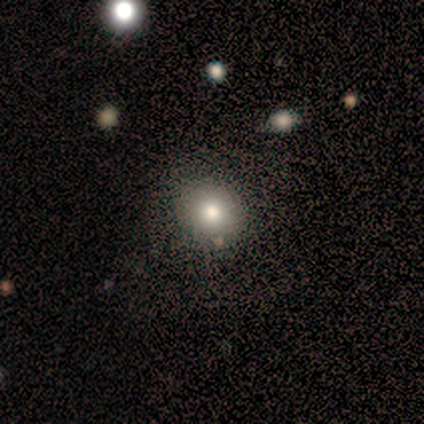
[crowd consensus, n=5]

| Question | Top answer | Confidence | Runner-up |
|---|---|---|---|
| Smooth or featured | smooth | 60% | featured or disk (20%) |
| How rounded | round | 100% | — |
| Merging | none | 100% | — |